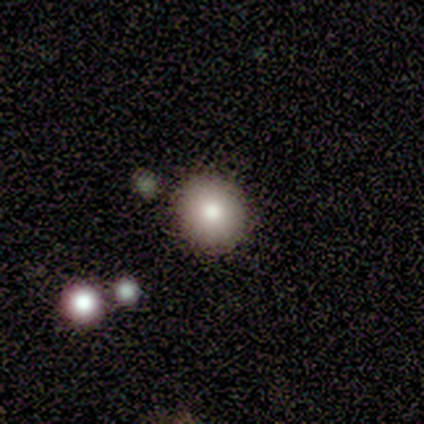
A smooth galaxy with no disk features (73%) that is round (88%).

Vote fractions:
- Smooth or featured? smooth: 73% / star or artifact: 27% / featured or disk: 0%
- How rounded? round: 88% / in between: 12% / cigar-shaped: 0%
- Merging? none: 100% / minor disturbance: 0% / major disturbance: 0% / merger: 0%